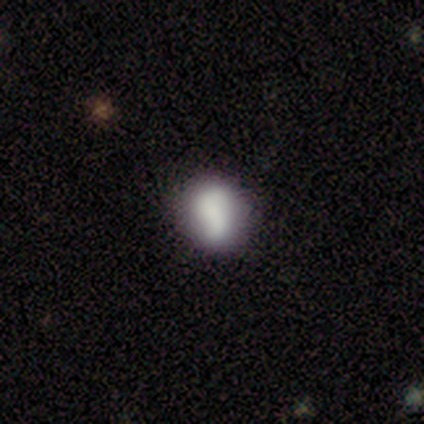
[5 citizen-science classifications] smooth-or-featured: smooth: 40% (tied) | featured or disk: 40% (tied) | star or artifact: 20%
  how-rounded: round: 50% (tied) | in between: 50% (tied) | cigar-shaped: 0%
  merging: minor disturbance: 50% | none: 25% | major disturbance: 25% | merger: 0%